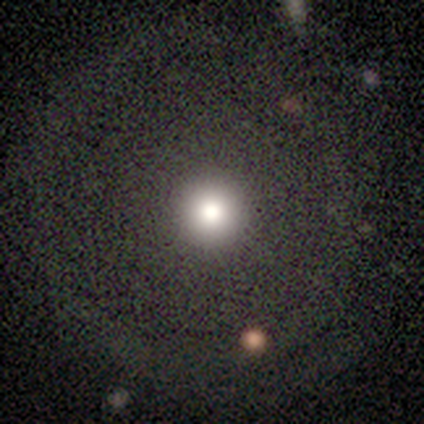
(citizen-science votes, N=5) This appears to be a smooth galaxy with no disk features (60%) that is round (100%). Merging: none (75%).